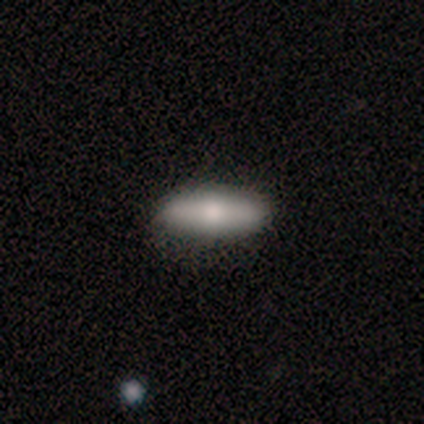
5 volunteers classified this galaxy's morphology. Overall: featured or disk (80%). Edge-on disk: yes (75%). Edge-on bulge: rounded (100%). Merging: none (100%).